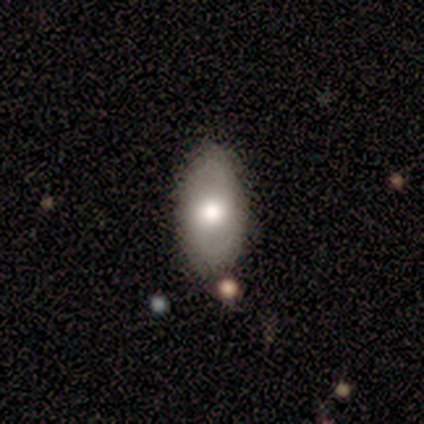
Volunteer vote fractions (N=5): Smooth or featured? featured or disk (60%)
Edge-on disk? no (100%)
Bar? no (100%)
Spiral arms? no (100%)
Bulge size? moderate (100%)
Merging? none (100%)